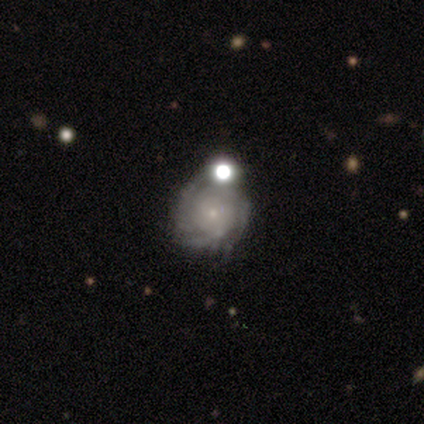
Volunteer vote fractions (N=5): Smooth or featured? 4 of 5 (80%) said featured or disk. Edge-on disk? 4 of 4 (100%) said no. Bar? 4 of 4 (100%) said no. Spiral arms? 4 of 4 (100%) said yes. Spiral winding? 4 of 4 (100%) said tight. Spiral arm count? 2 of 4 (50%, tied with can't tell) said 4. Bulge size? 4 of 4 (100%) said small. Merging? 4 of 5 (80%) said none.